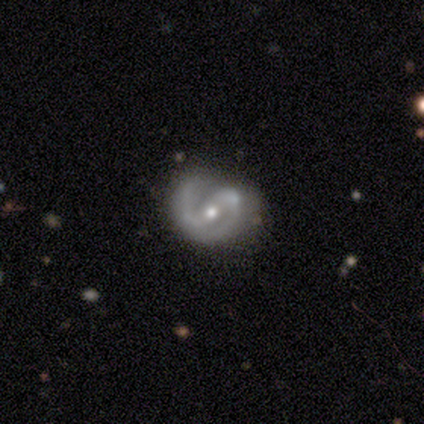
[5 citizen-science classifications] This appears to be a featured or disk galaxy (100%) with a weak bar (60%), 2 (80%) medium (60%) spiral arms (100%) and a moderate central bulge (60%). Merging: none (80%).